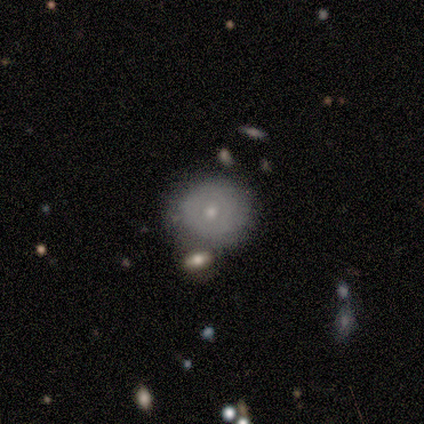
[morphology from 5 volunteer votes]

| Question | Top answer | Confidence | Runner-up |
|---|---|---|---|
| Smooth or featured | smooth | 80% | star or artifact (20%) |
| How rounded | round | 100% | — |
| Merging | none | 100% | — |